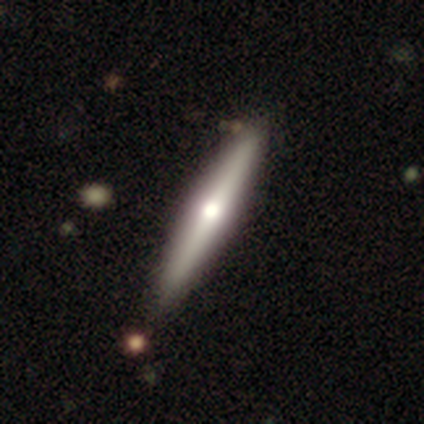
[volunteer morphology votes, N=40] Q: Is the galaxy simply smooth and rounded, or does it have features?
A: featured or disk — 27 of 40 (68%).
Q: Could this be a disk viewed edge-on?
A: yes — 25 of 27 (93%).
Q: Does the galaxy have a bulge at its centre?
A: rounded — 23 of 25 (92%).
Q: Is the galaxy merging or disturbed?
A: none — 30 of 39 (77%).